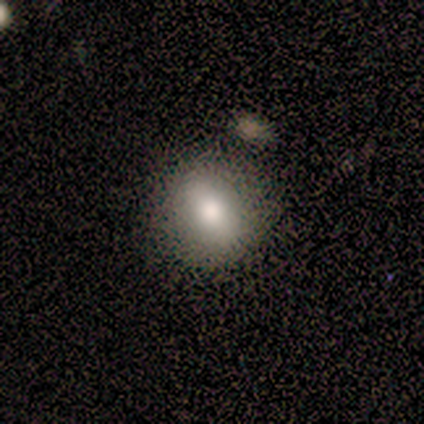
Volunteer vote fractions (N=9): Overall: smooth (78%). How rounded: round (71%). Merging: none (86%).